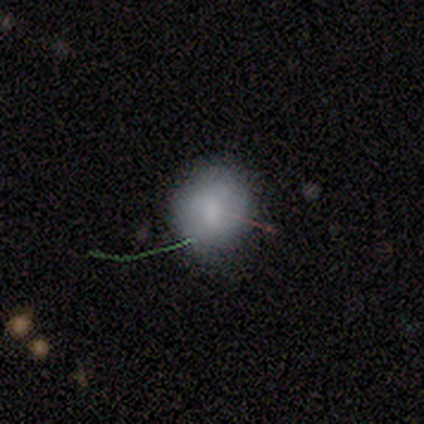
smooth_or_featured: smooth (p=1.00)
how_rounded: round (p=0.80) [alt: in between p=0.20]
merging: none (p=0.80) [alt: minor disturbance p=0.20]